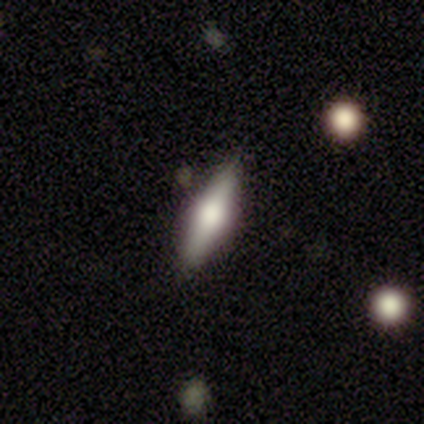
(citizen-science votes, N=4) Morphology: type=smooth (50%, tied with featured or disk); roundness=in between (100%); merging=none (75%).